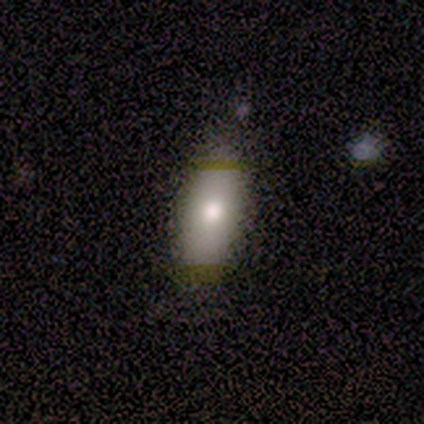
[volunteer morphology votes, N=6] Smooth or featured?
  - smooth: 83% *
  - star or artifact: 17%
  - featured or disk: 0%
How rounded?
  - in between: 80% *
  - cigar-shaped: 20%
  - round: 0%
Merging?
  - none: 100% *
  - minor disturbance: 0%
  - major disturbance: 0%
  - merger: 0%